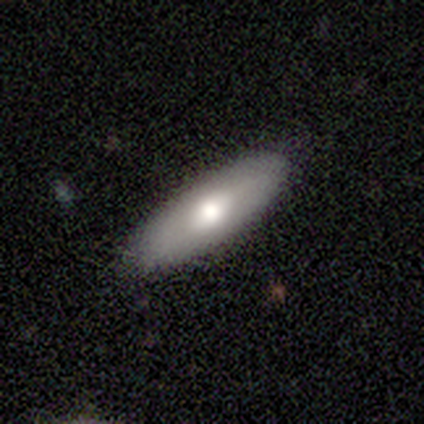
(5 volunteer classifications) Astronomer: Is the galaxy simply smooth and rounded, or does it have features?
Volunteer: smooth — 80%.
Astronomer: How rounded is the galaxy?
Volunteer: cigar-shaped — 100%.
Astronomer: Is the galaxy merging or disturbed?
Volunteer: none — 100%.